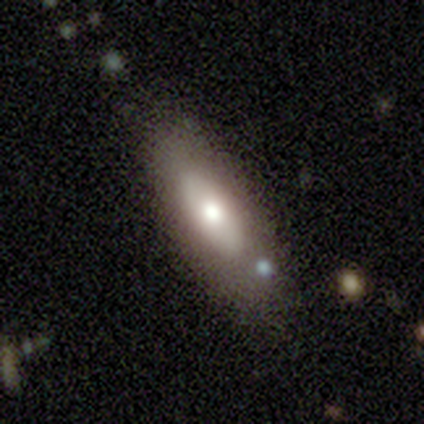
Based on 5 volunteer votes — Volunteers were most divided on "bar": no: 67%, weak: 33%, strong: 0%. More confident: edge-on disk — no (100%); spiral arms — no (100%); merging — none (100%); bulge size — moderate (67%); smooth or featured — featured or disk (60%).